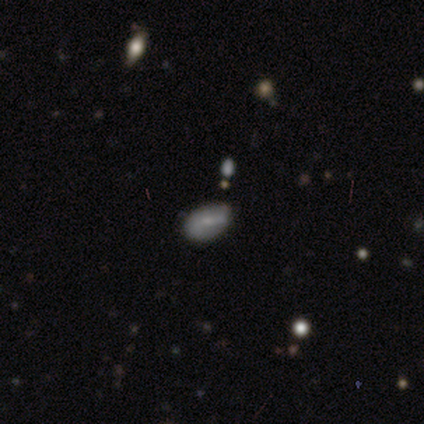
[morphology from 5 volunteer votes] smooth_or_featured: featured or disk (p=0.60) [alt: smooth p=0.20]
disk_edge_on: no (p=1.00)
bar: weak (p=0.67) [alt: no p=0.33]
has_spiral_arms: no (p=0.67) [alt: yes p=0.33]
bulge_size: moderate (p=0.33) [tied with: small p=0.33, none p=0.33]
merging: minor disturbance (p=0.75) [alt: none p=0.25]